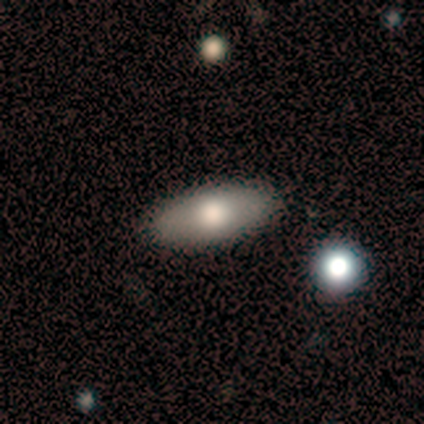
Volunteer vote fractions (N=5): A smooth galaxy with no disk features (80%) that is in between round and cigar-shaped (100%).

Vote fractions:
- Smooth or featured? smooth: 80% / star or artifact: 20% / featured or disk: 0%
- How rounded? in between: 100% / round: 0% / cigar-shaped: 0%
- Merging? none: 100% / minor disturbance: 0% / major disturbance: 0% / merger: 0%